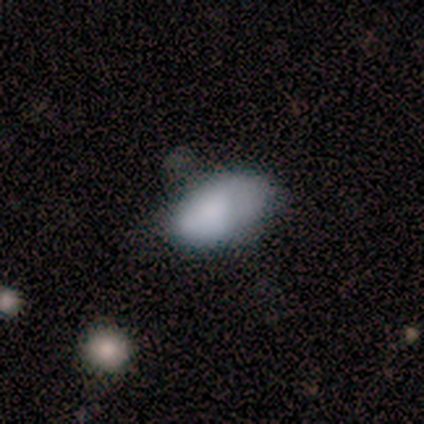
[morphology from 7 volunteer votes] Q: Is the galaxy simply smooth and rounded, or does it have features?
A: smooth — 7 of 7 (100%).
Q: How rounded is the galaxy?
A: in between — 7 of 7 (100%).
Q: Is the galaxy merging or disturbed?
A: none — 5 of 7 (71%).